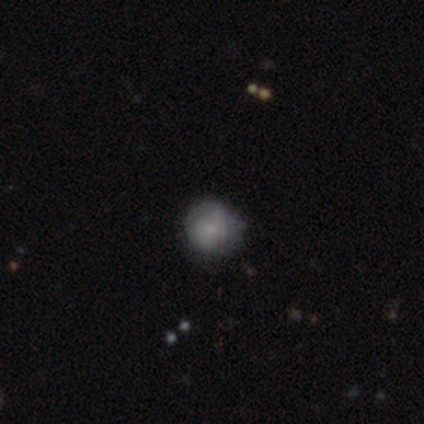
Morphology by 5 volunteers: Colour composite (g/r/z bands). It shows a smooth galaxy with no disk features (60%) that is round (100%). Merging: none (60%).